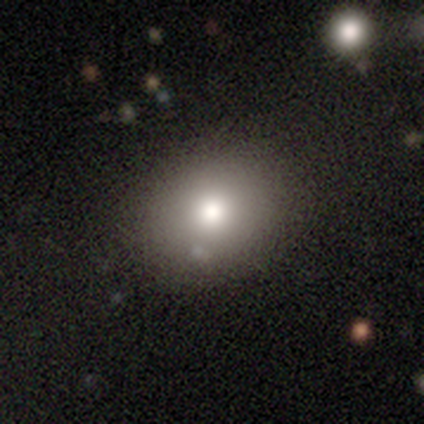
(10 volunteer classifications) Smooth or featured?
  - smooth: 70% *
  - featured or disk: 20%
  - star or artifact: 10%
How rounded?
  - in between: 57% *
  - round: 43%
  - cigar-shaped: 0%
Merging?
  - none: 100% *
  - minor disturbance: 0%
  - major disturbance: 0%
  - merger: 0%